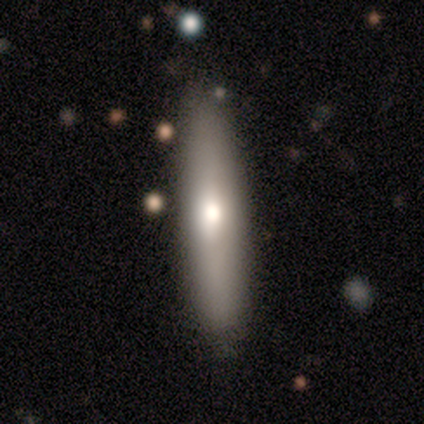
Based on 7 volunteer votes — Overall: smooth (71%). How rounded: cigar-shaped (100%). Merging: none (100%).